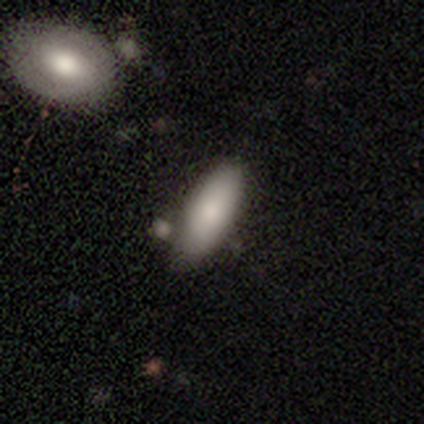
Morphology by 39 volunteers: Smooth or featured?
  - smooth: 85% *
  - featured or disk: 13%
  - star or artifact: 3%
How rounded?
  - in between: 88% *
  - cigar-shaped: 12%
  - round: 0%
Merging?
  - none: 53% *
  - merger: 21%
  - minor disturbance: 11%
  - major disturbance: 0%